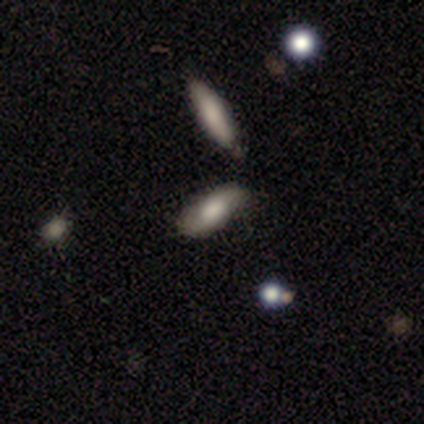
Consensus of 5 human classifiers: This appears to be a smooth galaxy with no disk features (80%) that is in between round and cigar-shaped (75%). Merging: none (60%).